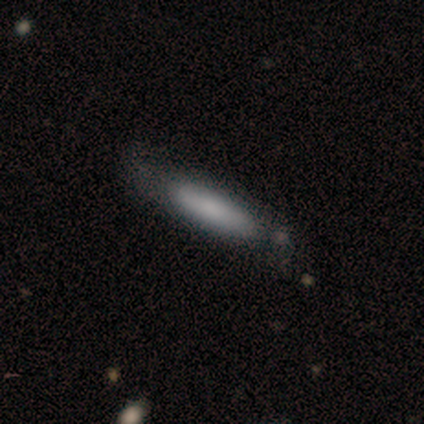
A smooth galaxy with no disk features (100%) that is cigar-shaped (80%). Merging: none (80%).